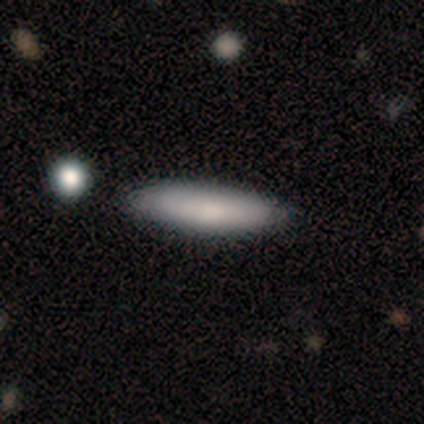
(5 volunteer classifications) A smooth galaxy with no disk features (100%) that is cigar-shaped (60%).

Vote fractions:
- Smooth or featured? smooth: 100% / featured or disk: 0% / star or artifact: 0%
- How rounded? cigar-shaped: 60% / in between: 40% / round: 0%
- Merging? none: 80% / minor disturbance: 20% / major disturbance: 0% / merger: 0%